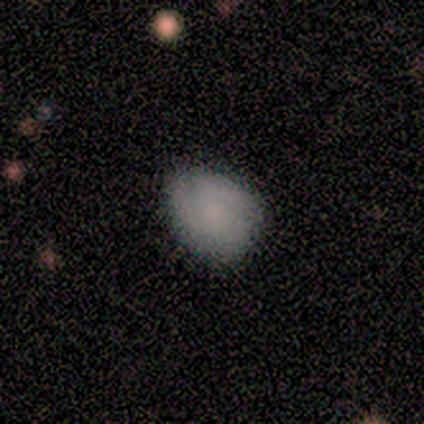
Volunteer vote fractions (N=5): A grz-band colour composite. It shows a smooth galaxy with no disk features (80%) that is round (50%, tied with in between). Merging: none (60%).